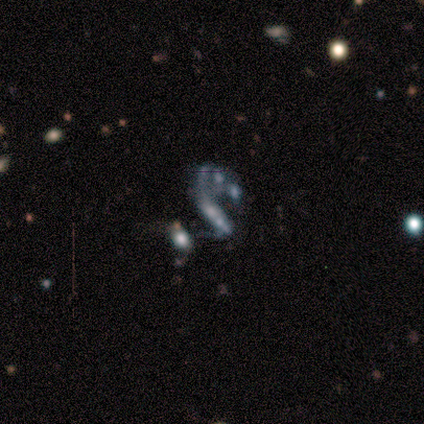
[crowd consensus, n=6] A featured or disk galaxy (83%) with no bar (60%), 1 (100%) loose (67%) spiral arms (60%) and no central bulge (60%).

Vote fractions:
- Smooth or featured? featured or disk: 83% / star or artifact: 17% / smooth: 0%
- Edge-on disk? no: 100% / yes: 0%
- Bar? no: 60% / strong: 20% / weak: 20%
- Spiral arms? yes: 60% / no: 40%
- Spiral winding? loose: 67% / tight: 33% / medium: 0%
- Spiral arm count? 1: 100% / 2: 0% / 3: 0% / 4: 0% / more than 4: 0% / can't tell: 0%
- Bulge size? none: 60% / small: 40% / dominant: 0% / large: 0% / moderate: 0%
- Merging? merger: 60% / major disturbance: 40% / none: 0% / minor disturbance: 0%